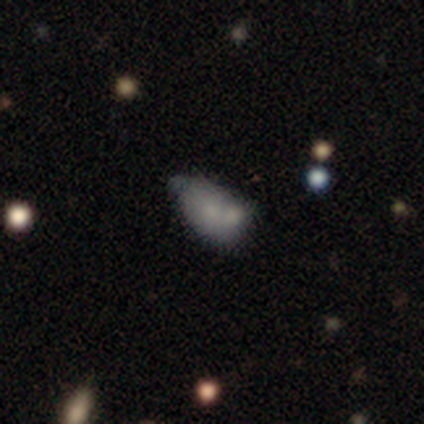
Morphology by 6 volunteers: smooth-or-featured: featured or disk: 100% | smooth: 0% | star or artifact: 0%
  disk-edge-on: no: 100% | yes: 0%
    bar: no: 83% | weak: 17% | strong: 0%
    has-spiral-arms: no: 100% | yes: 0%
    bulge-size: small: 50% (tied) | none: 50% (tied) | dominant: 0% | large: 0% | moderate: 0%
  merging: none: 33% (tied) | merger: 33% (tied) | minor disturbance: 17% | major disturbance: 17%